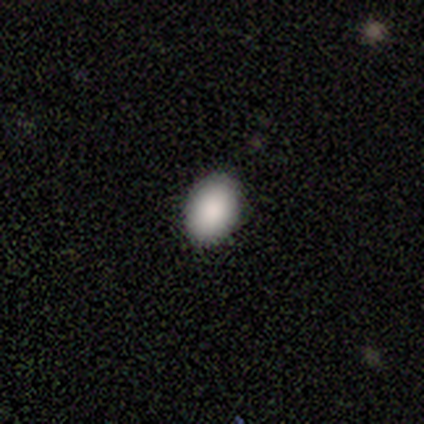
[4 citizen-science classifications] smooth_or_featured: smooth (p=1.00)
how_rounded: in between (p=0.75) [alt: round p=0.25]
merging: none (p=1.00)